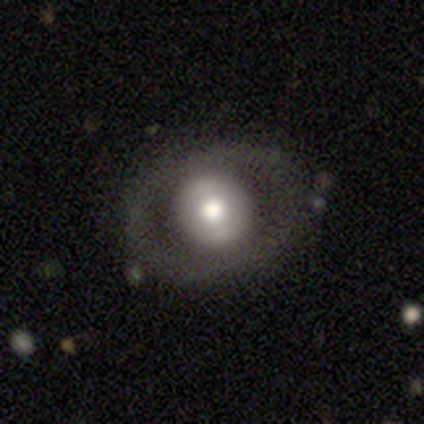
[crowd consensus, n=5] smooth-or-featured: featured or disk: 60% | smooth: 20% | star or artifact: 20%
  disk-edge-on: no: 100% | yes: 0%
    bar: strong: 33% (tied) | weak: 33% (tied) | no: 33% (tied)
    has-spiral-arms: no: 100% | yes: 0%
    bulge-size: moderate: 100% | dominant: 0% | large: 0% | small: 0% | none: 0%
  merging: none: 75% | minor disturbance: 25% | major disturbance: 0% | merger: 0%